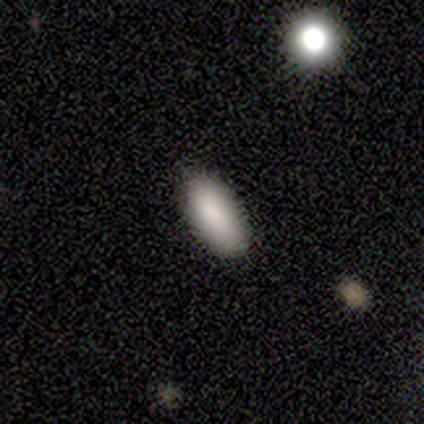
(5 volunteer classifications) A smooth galaxy with no disk features (100%) that is in between round and cigar-shaped (100%).

Vote fractions:
- Smooth or featured? smooth: 100% / featured or disk: 0% / star or artifact: 0%
- How rounded? in between: 100% / round: 0% / cigar-shaped: 0%
- Merging? none: 100% / minor disturbance: 0% / major disturbance: 0% / merger: 0%